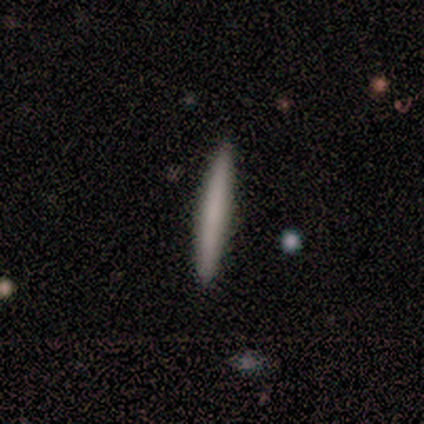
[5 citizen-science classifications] smooth_or_featured: featured or disk (p=0.60) [alt: smooth p=0.40]
disk_edge_on: yes (p=0.67) [alt: no p=0.33]
edge_on_bulge: none (p=1.00)
merging: none (p=0.80) [alt: major disturbance p=0.20]